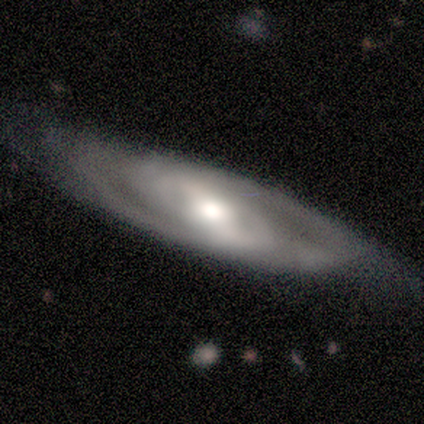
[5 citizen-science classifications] Q: Smooth or featured?
A: featured or disk (100%)
Q: Edge-on disk?
A: no (100%)
Q: Bar?
A: weak (60%); runner-up: no (40%)
Q: Spiral arms?
A: yes (100%)
Q: Spiral winding?
A: medium (80%); runner-up: tight (20%)
Q: Spiral arm count?
A: can't tell (60%); runner-up: 2 (40%)
Q: Bulge size?
A: large (40%); tied with: moderate (40%)
Q: Merging?
A: none (60%); runner-up: minor disturbance (40%)